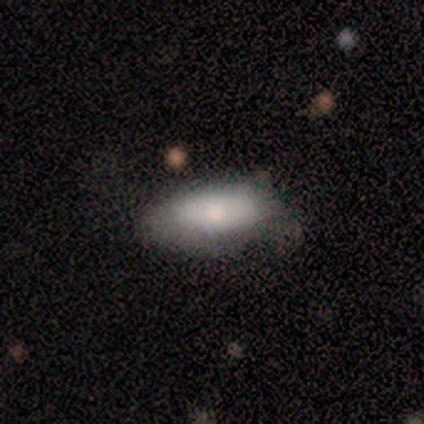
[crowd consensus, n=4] smooth 75%, star or artifact 25%, featured or disk 0%. Down the decision tree: how rounded — in between (67%); merging — minor disturbance (67%).